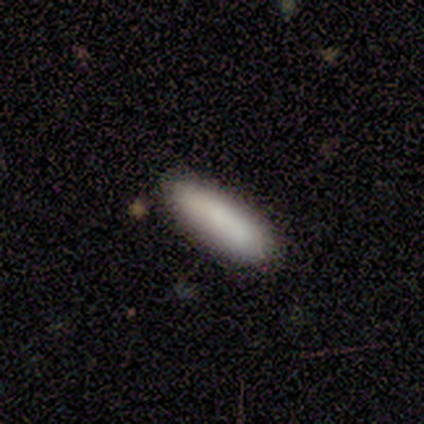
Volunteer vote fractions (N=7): smooth 86%, star or artifact 14%, featured or disk 0%. Down the decision tree: how rounded — cigar-shaped (67%); merging — none (83%).